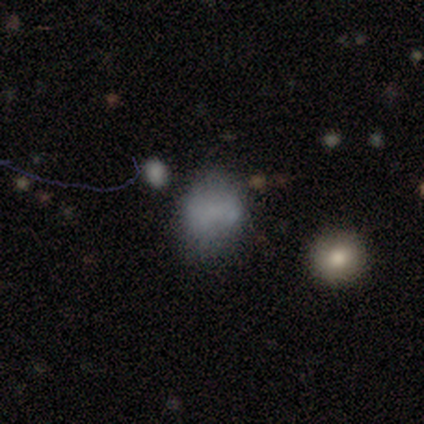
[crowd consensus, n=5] Q: Smooth or featured?
A: smooth (60%); runner-up: featured or disk (40%)
Q: How rounded?
A: in between (67%); runner-up: round (33%)
Q: Merging?
A: none (80%); runner-up: minor disturbance (20%)